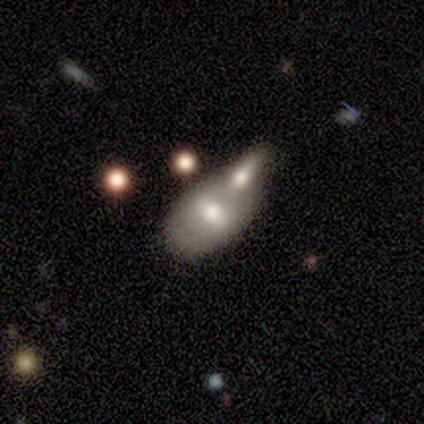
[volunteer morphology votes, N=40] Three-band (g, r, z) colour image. It shows a smooth galaxy with no disk features (48%) that is in between round and cigar-shaped (84%). Merging: merger (65%).